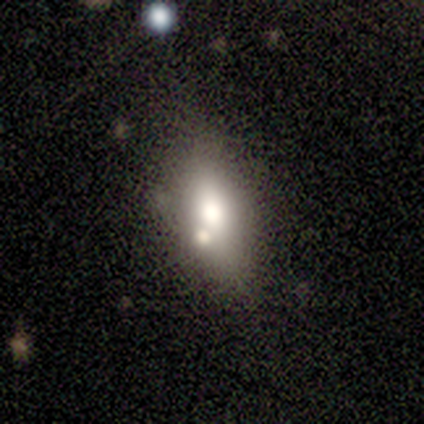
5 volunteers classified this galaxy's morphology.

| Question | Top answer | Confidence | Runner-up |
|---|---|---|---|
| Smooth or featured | smooth | 60% | featured or disk (20%) |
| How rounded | in between | 100% | — |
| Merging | none | 100% | — |